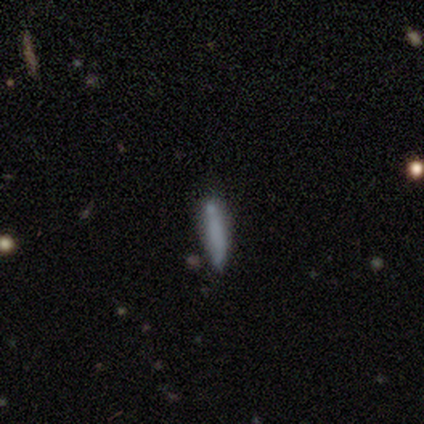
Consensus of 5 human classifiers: smooth 80%, star or artifact 20%, featured or disk 0%. Down the decision tree: how rounded — cigar-shaped (100%); merging — minor disturbance (75%).